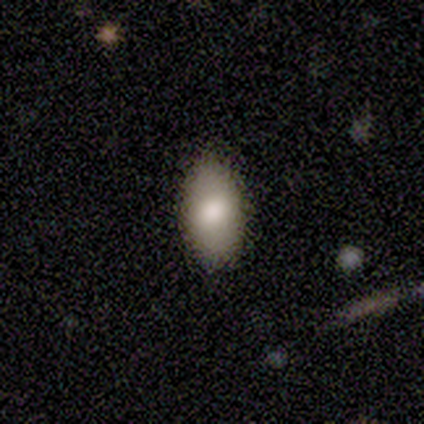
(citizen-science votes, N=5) smooth_or_featured: smooth (p=1.00)
how_rounded: in between (p=1.00)
merging: none (p=1.00)